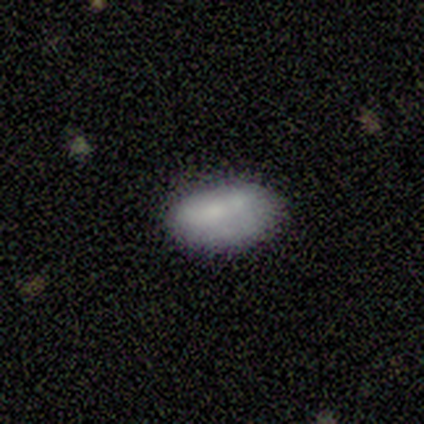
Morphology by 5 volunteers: Smooth or featured: smooth — 100%
How rounded: in between — 100%
Merging: none — 60% (minor disturbance — 40%)